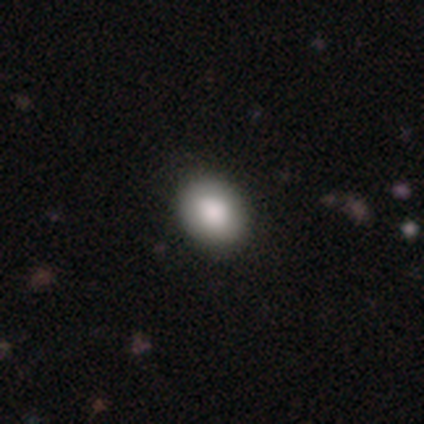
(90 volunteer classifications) smooth-or-featured: smooth: 88% | featured or disk: 7% | star or artifact: 6%
  how-rounded: in between: 53% | round: 46% | cigar-shaped: 1%
  merging: none: 87% | minor disturbance: 11% | major disturbance: 1% | merger: 1%